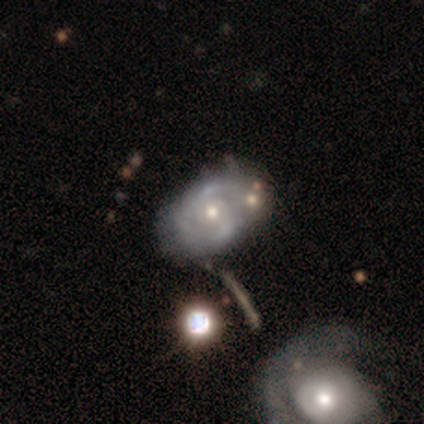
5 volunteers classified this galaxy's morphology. type=featured or disk (80%); edge-on=no (100%); bar=weak (75%); spiral arms=yes (100%); winding=tight (50%, tied with medium); arm count=2 (75%); bulge=small (100%); merging=none (75%).